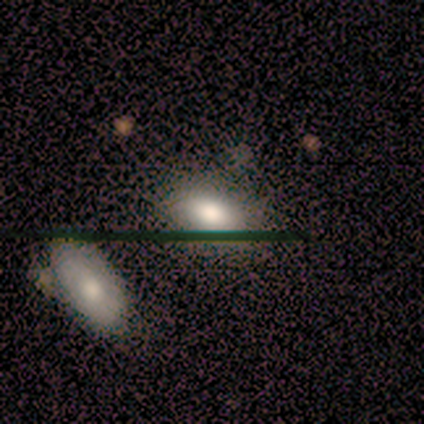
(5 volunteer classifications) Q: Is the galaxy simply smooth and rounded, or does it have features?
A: smooth — 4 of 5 (80%).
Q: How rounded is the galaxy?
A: in between — 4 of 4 (100%).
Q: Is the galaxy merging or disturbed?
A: none — 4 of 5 (80%).